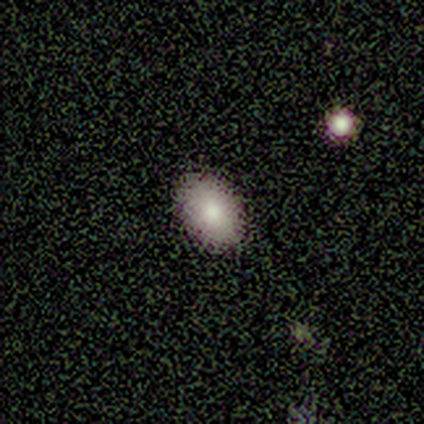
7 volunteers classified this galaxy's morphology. type=smooth (57%); roundness=in between (75%); merging=none (80%).